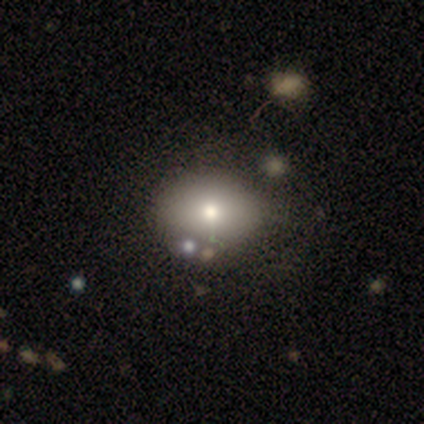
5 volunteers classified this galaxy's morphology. Smooth or featured? smooth (40%, tied with star or artifact)
How rounded? in between (100%)
Merging? none (67%)